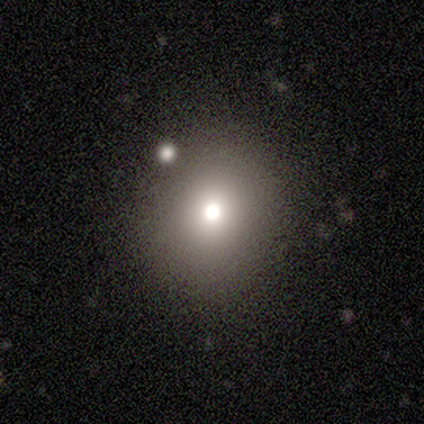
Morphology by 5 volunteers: Volunteers were most divided on "how rounded": round: 67%, in between: 33%, cigar-shaped: 0%. More confident: merging — none (100%); smooth or featured — smooth (60%).